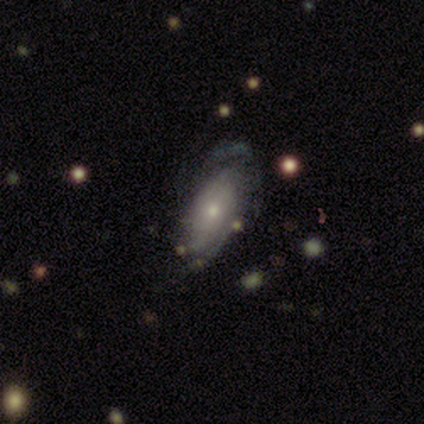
smooth-or-featured: featured or disk: 83% | smooth: 17% | star or artifact: 0%
  disk-edge-on: no: 80% | yes: 20%
    bar: no: 75% | weak: 25% | strong: 0%
    has-spiral-arms: yes: 75% | no: 25%
      spiral-winding: tight: 67% | medium: 33% | loose: 0%
      spiral-arm-count: can't tell: 67% | 2: 33% | 1: 0% | 3: 0% | 4: 0% | more than 4: 0%
    bulge-size: moderate: 50% (tied) | small: 50% (tied) | dominant: 0% | large: 0% | none: 0%
  merging: none: 50% (tied) | major disturbance: 50% (tied) | minor disturbance: 0% | merger: 0%